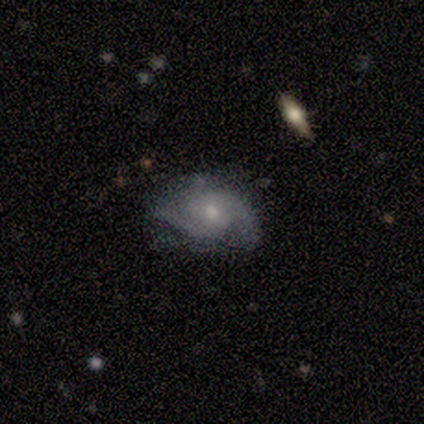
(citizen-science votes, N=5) This appears to be a featured or disk galaxy (100%) with no bar (60%), 2 (75%) tight (75%) spiral arms (80%) and a small central bulge (60%). Merging: none (60%).